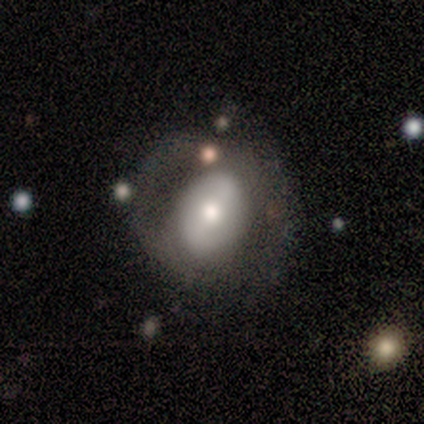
A featured or disk galaxy (67%) with a strong bar (50%, tied with no), 2 (100%) tight (50%, tied with medium) spiral arms (100%) and a moderate central bulge (100%).

Vote fractions:
- Smooth or featured? featured or disk: 67% / smooth: 33% / star or artifact: 0%
- Edge-on disk? no: 100% / yes: 0%
- Bar? strong: 50% (tied) / no: 50% (tied) / weak: 0%
- Spiral arms? yes: 100% / no: 0%
- Spiral winding? tight: 50% (tied) / medium: 50% (tied) / loose: 0%
- Spiral arm count? 2: 100% / 1: 0% / 3: 0% / 4: 0% / more than 4: 0% / can't tell: 0%
- Bulge size? moderate: 100% / dominant: 0% / large: 0% / small: 0% / none: 0%
- Merging? none: 67% / major disturbance: 33% / minor disturbance: 0% / merger: 0%